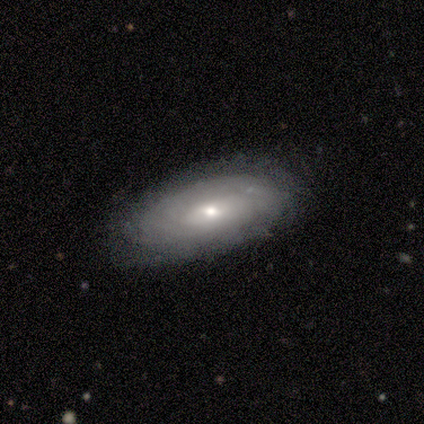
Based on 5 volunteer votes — Morphology: type=featured or disk (60%); edge-on=no (100%); bar=weak (67%); spiral arms=yes (67%); winding=tight (100%); arm count=4 (50%, tied with can't tell); bulge=large (33%, tied with moderate and small); merging=none (60%).